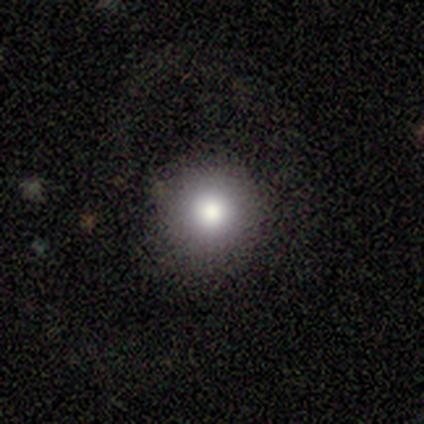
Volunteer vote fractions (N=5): smooth-or-featured: smooth: 80% | star or artifact: 20% | featured or disk: 0%
  how-rounded: round: 100% | in between: 0% | cigar-shaped: 0%
  merging: none: 75% | minor disturbance: 25% | major disturbance: 0% | merger: 0%